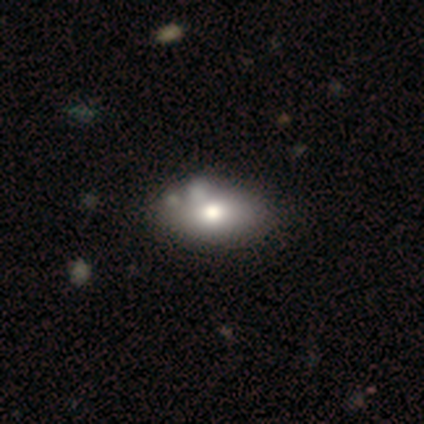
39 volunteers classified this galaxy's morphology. Smooth or featured? 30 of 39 (77%) said smooth. How rounded? 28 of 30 (93%) said in between. Merging? 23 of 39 (59%) said none.